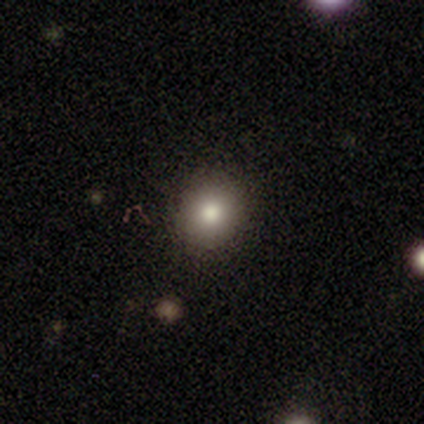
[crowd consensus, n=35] Morphology: type=smooth (74%); roundness=round (88%); merging=none (93%).